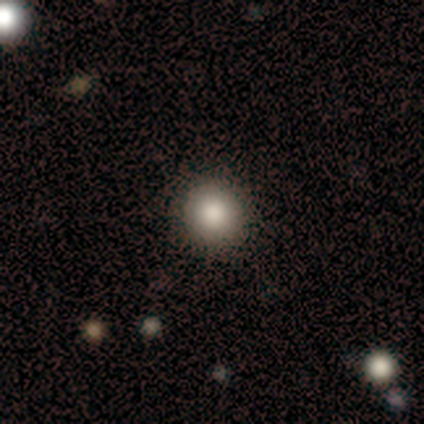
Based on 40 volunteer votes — Smooth or featured?
  - smooth: 80% *
  - featured or disk: 15%
  - star or artifact: 5%
How rounded?
  - round: 100% *
  - in between: 0%
  - cigar-shaped: 0%
Merging?
  - none: 97% *
  - minor disturbance: 3%
  - major disturbance: 0%
  - merger: 0%